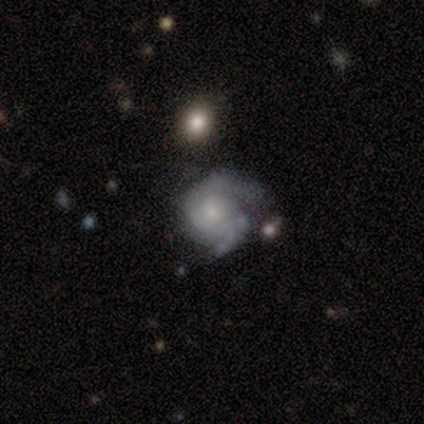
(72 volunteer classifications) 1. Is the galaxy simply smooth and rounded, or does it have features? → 75% featured or disk, 18% smooth, 7% star or artifact.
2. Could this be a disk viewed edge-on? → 94% no, 6% yes.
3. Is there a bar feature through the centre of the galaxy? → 80% no, 18% weak, 2% strong.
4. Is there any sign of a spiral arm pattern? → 94% yes, 6% no.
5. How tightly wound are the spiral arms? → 62% tight, 33% medium, 4% loose.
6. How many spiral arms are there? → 65% 2, 17% 3, 10% 1, 8% can't tell, 0% 4, 0% more than 4.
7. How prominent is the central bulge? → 59% small, 31% moderate, 6% none, 4% large, 0% dominant.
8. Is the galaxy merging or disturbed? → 48% none, 27% minor disturbance, 15% major disturbance, 10% merger.